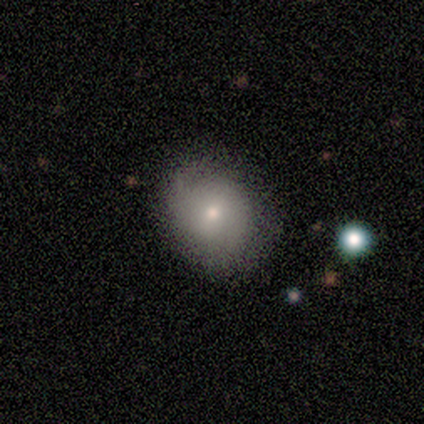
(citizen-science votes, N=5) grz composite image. It shows a smooth galaxy with no disk features (80%) that is round (75%). Merging: none (40%, tied with minor disturbance).